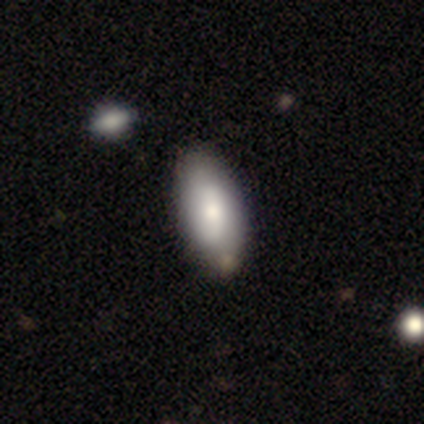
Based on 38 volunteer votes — A smooth galaxy with no disk features (71%) that is in between round and cigar-shaped (93%). Merging: none (69%).